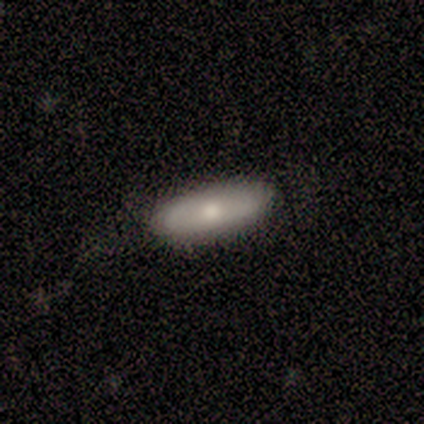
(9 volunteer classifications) Q: Smooth or featured?
A: featured or disk (56%); runner-up: smooth (44%)
Q: Edge-on disk?
A: no (80%); runner-up: yes (20%)
Q: Bar?
A: no (100%)
Q: Spiral arms?
A: yes (50%); tied with: no (50%)
Q: Spiral winding?
A: tight (50%); tied with: loose (50%)
Q: Spiral arm count?
A: 1 (50%); tied with: can't tell (50%)
Q: Bulge size?
A: small (75%); runner-up: moderate (25%)
Q: Merging?
A: none (89%); runner-up: minor disturbance (11%)